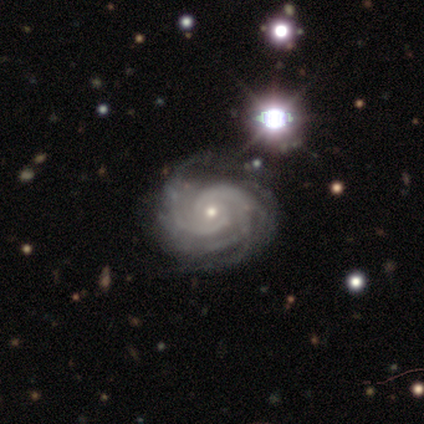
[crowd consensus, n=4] Volunteers were most divided on "bar": no: 50%, strong: 25%, weak: 25%. More confident: smooth or featured — featured or disk (100%); edge-on disk — no (100%); spiral arms — yes (100%); bulge size — small (100%); spiral winding — tight (75%); merging — none (75%); spiral arm count — more than 4 (50%).